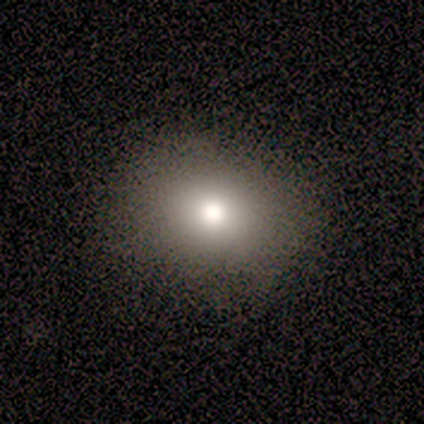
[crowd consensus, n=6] smooth_or_featured: smooth (p=0.83) [alt: star or artifact p=0.17]
how_rounded: round (p=0.60) [alt: in between p=0.40]
merging: none (p=1.00)